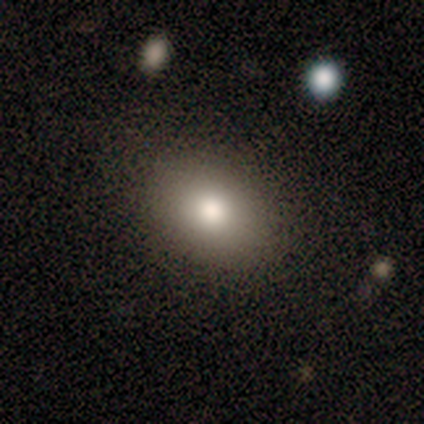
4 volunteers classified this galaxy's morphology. Overall: smooth (75%). How rounded: in between (67%; round 33%). Merging: none (50%, tied with merger).